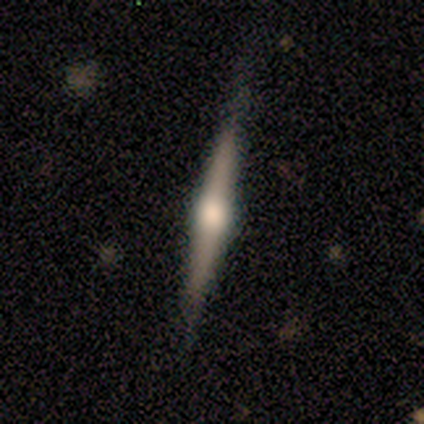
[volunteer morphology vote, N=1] A featured or disk galaxy (100%) viewed edge-on (100%) with a rounded central bulge (100%).

Vote fractions:
- Smooth or featured? featured or disk: 100% / smooth: 0% / star or artifact: 0%
- Edge-on disk? yes: 100% / no: 0%
- Edge-on bulge? rounded: 100% / boxy: 0% / none: 0%
- Merging? none: 100% / minor disturbance: 0% / major disturbance: 0% / merger: 0%